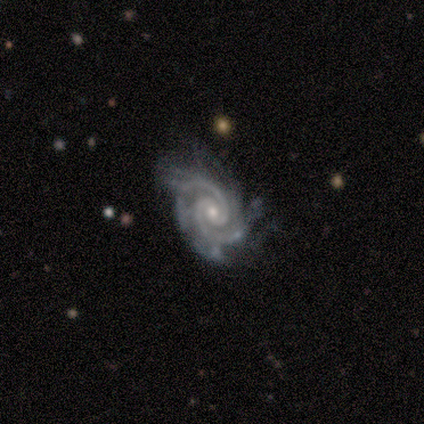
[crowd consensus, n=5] Morphology: type=featured or disk (100%); edge-on=no (100%); bar=no (60%); spiral arms=yes (100%); winding=tight (40%, tied with medium); arm count=2 (80%); bulge=small (60%); merging=none (60%).